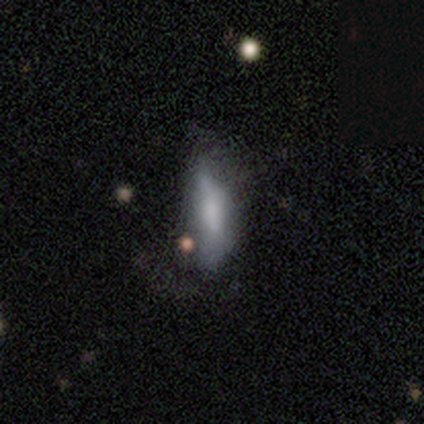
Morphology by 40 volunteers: Smooth or featured: smooth — 68% (featured or disk — 20%)
How rounded: in between — 67% (cigar-shaped — 33%)
Merging: none — 37% (major disturbance — 26%)